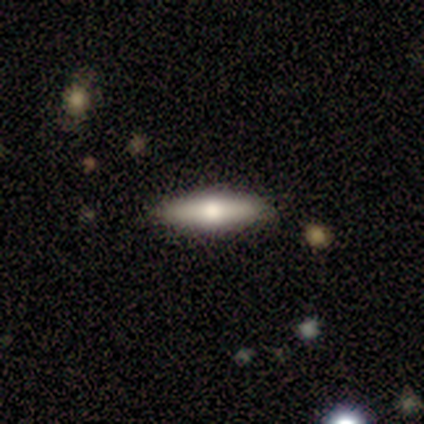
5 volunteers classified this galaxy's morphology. featured or disk 60%, smooth 40%, star or artifact 0%. Down the decision tree: edge-on disk — yes (100%); edge-on bulge — rounded (100%); merging — none (80%).